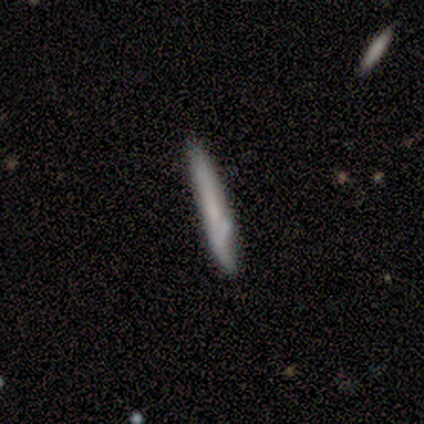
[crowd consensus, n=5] Smooth or featured: smooth — 60% (featured or disk — 40%)
How rounded: cigar-shaped — 100%
Merging: none — 80% (minor disturbance — 20%)